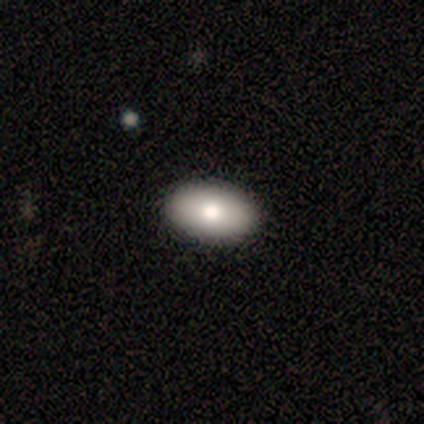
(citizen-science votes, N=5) Volunteers were most divided on "smooth or featured": smooth: 80%, featured or disk: 20%, star or artifact: 0%. More confident: how rounded — in between (100%); merging — none (80%).